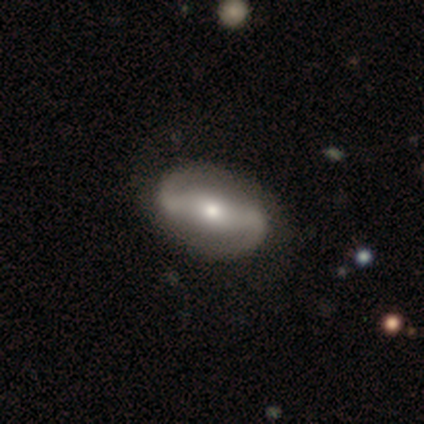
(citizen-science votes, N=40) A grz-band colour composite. It shows a featured or disk galaxy (90%) with a strong bar (71%), 2 (97%) medium (48%) spiral arms (91%) and a moderate central bulge (53%). Merging: none (68%).